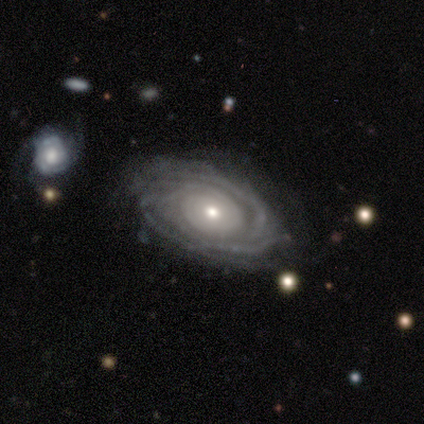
Morphology: type=featured or disk (92%); edge-on=no (91%); bar=no (78%); spiral arms=yes (97%); winding=tight (81%); arm count=more than 4 (29%, tied with can't tell); bulge=moderate (59%); merging=none (86%).